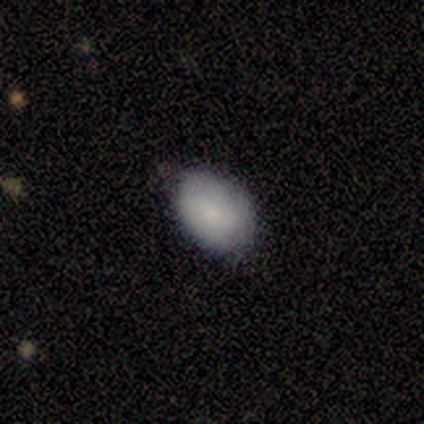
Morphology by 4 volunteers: Smooth or featured: smooth — 100%
How rounded: in between — 100%
Merging: none — 100%